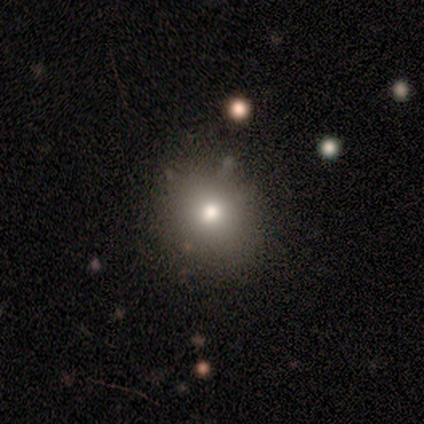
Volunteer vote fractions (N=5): smooth 100%, featured or disk 0%, star or artifact 0%. Down the decision tree: how rounded — round (80%); merging — none (80%).